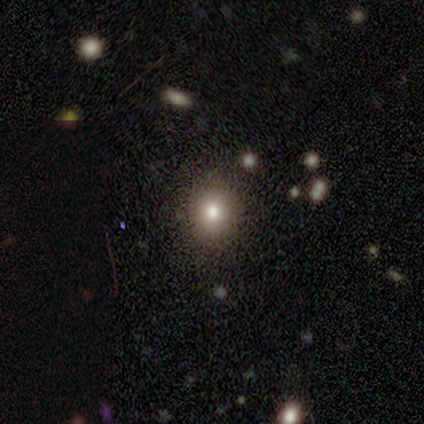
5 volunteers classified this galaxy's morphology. Smooth or featured? smooth (60%)
How rounded? in between (100%)
Merging? none (60%)